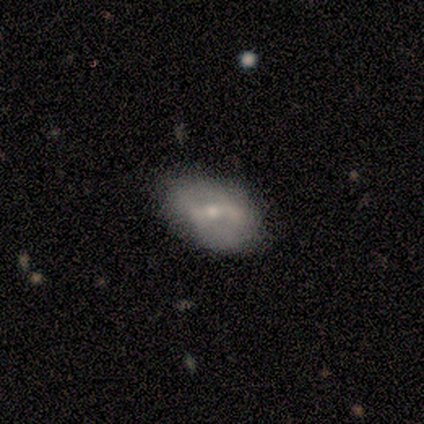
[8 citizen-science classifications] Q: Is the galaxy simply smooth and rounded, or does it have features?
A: featured or disk — 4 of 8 (50%).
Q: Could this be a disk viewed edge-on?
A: no — 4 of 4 (100%).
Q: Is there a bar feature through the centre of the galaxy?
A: weak — 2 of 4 (50%).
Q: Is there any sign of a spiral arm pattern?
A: yes — 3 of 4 (75%).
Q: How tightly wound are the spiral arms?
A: medium — 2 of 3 (67%).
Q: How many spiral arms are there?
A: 2 — 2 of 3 (67%).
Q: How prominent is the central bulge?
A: moderate — 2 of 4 (50%, tied with small).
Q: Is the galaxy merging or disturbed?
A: none — 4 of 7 (57%).